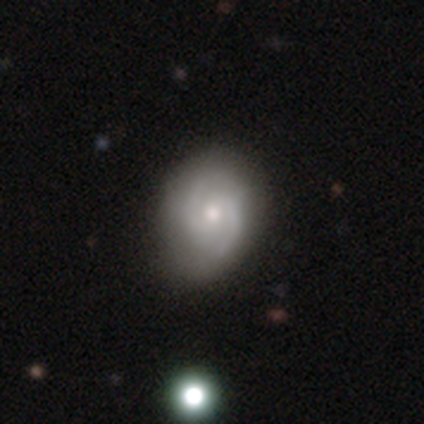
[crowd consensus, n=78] This is clearly a featured or disk galaxy (82%). It is clearly not viewed edge-on (97%). Bar: possibly no (58%). Spiral arm pattern: clearly yes (94%). Spiral arm count: clearly 2 (88%). Spiral winding: possibly medium (53%). Central bulge: possibly moderate (48%). Merging: marginally none (36%).